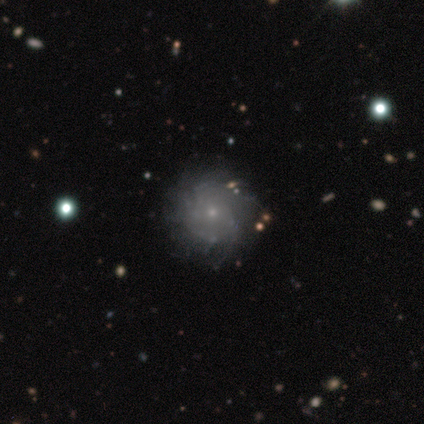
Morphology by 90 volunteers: A featured or disk galaxy (67%) with no bar (93%), tight (57%) spiral arms (82%) and a small central bulge (85%).

Vote fractions:
- Smooth or featured? featured or disk: 67% / smooth: 22% / star or artifact: 11%
- Edge-on disk? no: 100% / yes: 0%
- Bar? no: 93% / weak: 7% / strong: 0%
- Spiral arms? yes: 82% / no: 18%
- Spiral winding? tight: 57% / medium: 29% / loose: 14%
- Spiral arm count? can't tell: 51% / more than 4: 27% / 4: 14% / 2: 4% / 3: 4% / 1: 0%
- Bulge size? small: 85% / moderate: 12% / none: 3% / dominant: 0% / large: 0%
- Merging? none: 82% / minor disturbance: 10% / major disturbance: 8% / merger: 0%